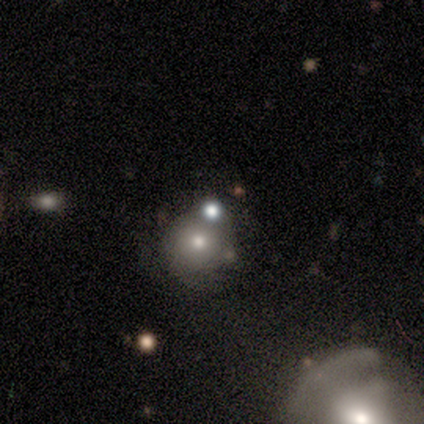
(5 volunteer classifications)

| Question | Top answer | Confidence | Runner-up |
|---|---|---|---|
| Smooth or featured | smooth | 40% | tied: featured or disk (40%) |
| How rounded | round | 100% | — |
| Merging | merger | 75% | none (25%) |